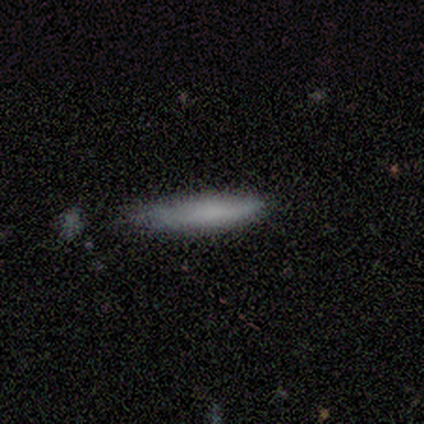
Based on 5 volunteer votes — A smooth galaxy with no disk features (100%) that is cigar-shaped (100%).

Vote fractions:
- Smooth or featured? smooth: 100% / featured or disk: 0% / star or artifact: 0%
- How rounded? cigar-shaped: 100% / round: 0% / in between: 0%
- Merging? none: 100% / minor disturbance: 0% / major disturbance: 0% / merger: 0%